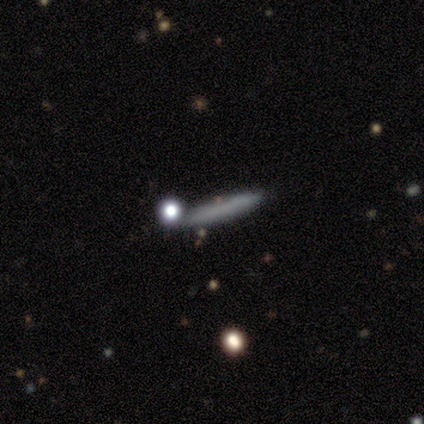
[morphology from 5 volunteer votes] Q: Smooth or featured?
A: smooth (60%); runner-up: featured or disk (40%)
Q: How rounded?
A: cigar-shaped (100%)
Q: Merging?
A: none (100%)